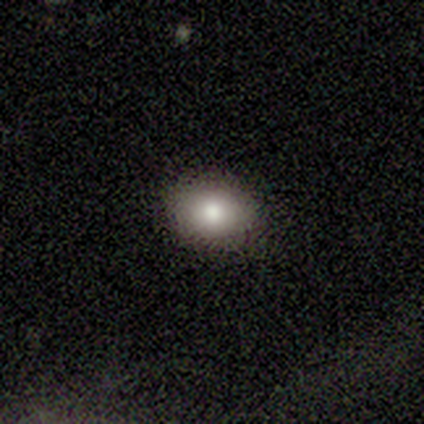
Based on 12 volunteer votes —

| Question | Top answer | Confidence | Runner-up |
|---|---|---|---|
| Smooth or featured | smooth | 83% | star or artifact (17%) |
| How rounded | in between | 60% | round (40%) |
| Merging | none | 100% | — |